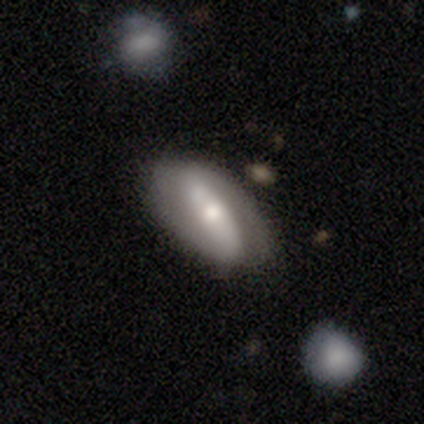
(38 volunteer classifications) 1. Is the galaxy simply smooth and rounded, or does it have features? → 82% featured or disk, 13% smooth, 5% star or artifact.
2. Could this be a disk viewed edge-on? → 90% no, 10% yes.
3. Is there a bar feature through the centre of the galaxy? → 71% strong, 14% weak, 14% no.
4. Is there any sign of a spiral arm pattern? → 89% yes, 11% no.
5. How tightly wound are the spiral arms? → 44% loose, 32% tight, 24% medium.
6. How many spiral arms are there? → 96% 2, 4% can't tell, 0% 1, 0% 3, 0% 4, 0% more than 4.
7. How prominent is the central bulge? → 57% moderate, 36% small, 4% dominant, 4% large, 0% none.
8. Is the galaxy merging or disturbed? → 69% none, 17% minor disturbance, 8% major disturbance, 6% merger.